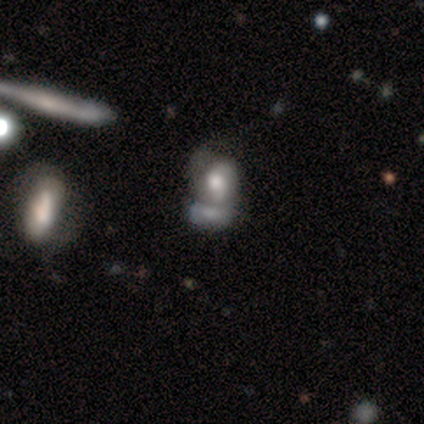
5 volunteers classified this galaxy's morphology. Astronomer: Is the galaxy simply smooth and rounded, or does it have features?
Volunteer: smooth — 80%.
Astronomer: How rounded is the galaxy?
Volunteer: round — 75%.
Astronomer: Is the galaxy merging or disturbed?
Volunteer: merger — 40% (runner-up: none, 20%).